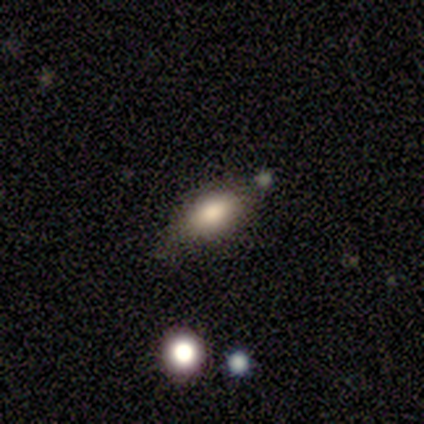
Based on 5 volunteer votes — Smooth or featured: smooth — 60% (featured or disk — 40%)
How rounded: in between — 100%
Merging: none — 80% (minor disturbance — 20%)